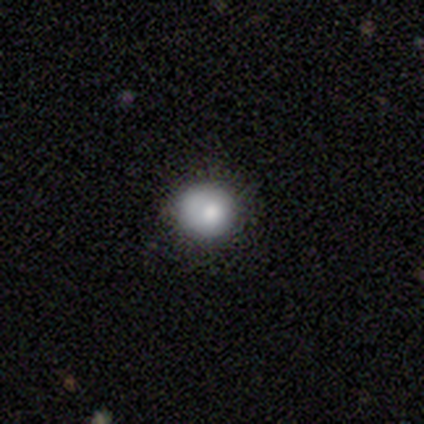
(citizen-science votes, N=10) smooth_or_featured: smooth (p=0.70) [alt: featured or disk p=0.30]
how_rounded: round (p=1.00)
merging: none (p=0.70) [alt: minor disturbance p=0.30]